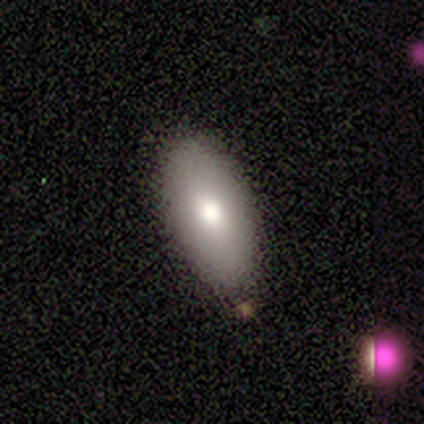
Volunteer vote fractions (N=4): Smooth or featured: smooth — 75% (featured or disk — 25%)
How rounded: in between — 100%
Merging: none — 75% (minor disturbance — 25%)